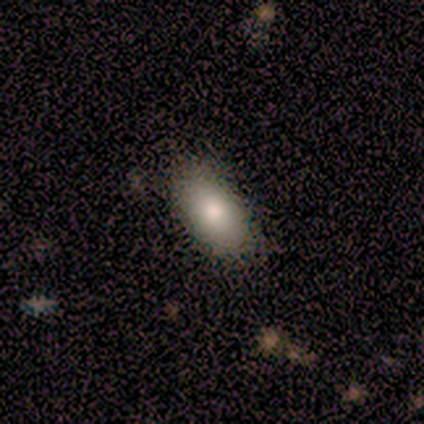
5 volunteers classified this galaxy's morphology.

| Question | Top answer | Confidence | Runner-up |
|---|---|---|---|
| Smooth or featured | smooth | 100% | — |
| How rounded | in between | 100% | — |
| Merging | none | 80% | minor disturbance (20%) |